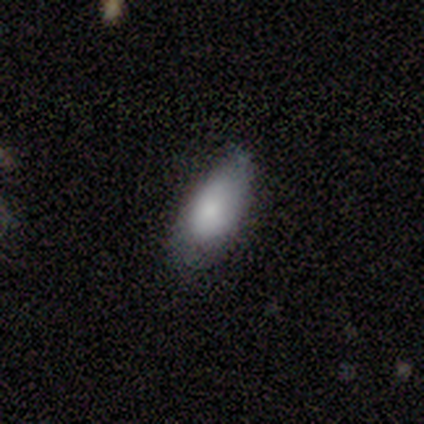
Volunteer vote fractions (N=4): Smooth or featured?
  - smooth: 75% *
  - featured or disk: 25%
  - star or artifact: 0%
How rounded?
  - in between: 67% *
  - cigar-shaped: 33%
  - round: 0%
Merging?
  - minor disturbance: 75% *
  - none: 25%
  - major disturbance: 0%
  - merger: 0%